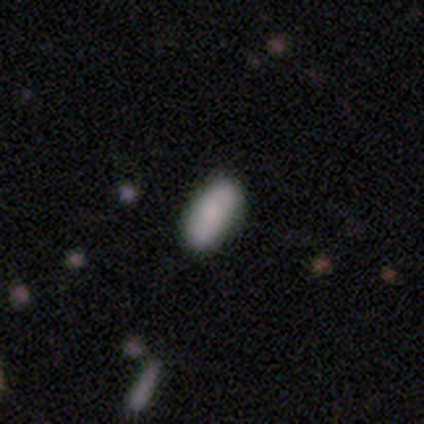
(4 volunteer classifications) A smooth galaxy with no disk features (75%) that is in between round and cigar-shaped (67%). Merging: none (50%).